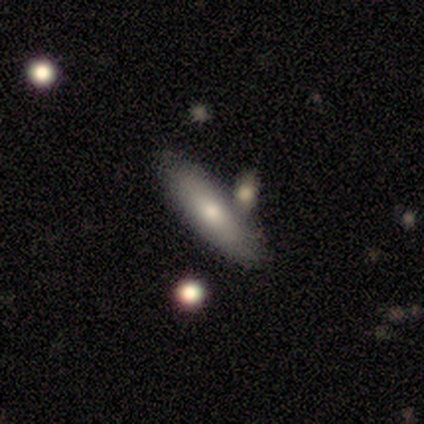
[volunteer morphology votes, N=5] Smooth or featured? smooth (80%)
How rounded? cigar-shaped (75%)
Merging? none (40%, tied with minor disturbance)